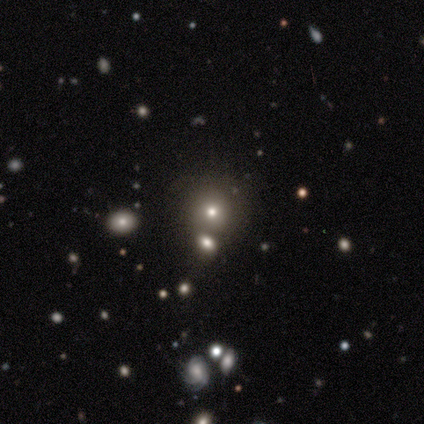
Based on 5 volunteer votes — smooth 60%, star or artifact 40%, featured or disk 0%. Down the decision tree: how rounded — round (100%); merging — none (67%).